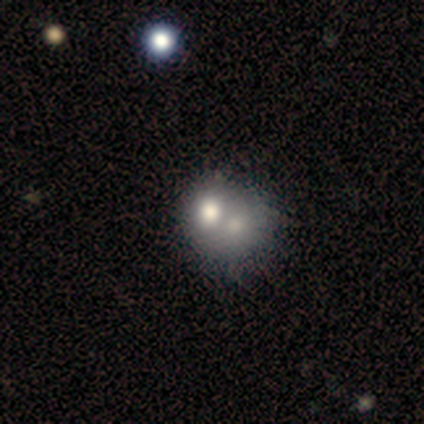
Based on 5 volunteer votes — Smooth or featured? 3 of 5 (60%) said smooth. How rounded? 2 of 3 (67%) said round. Merging? 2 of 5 (40%, tied with merger) said none.